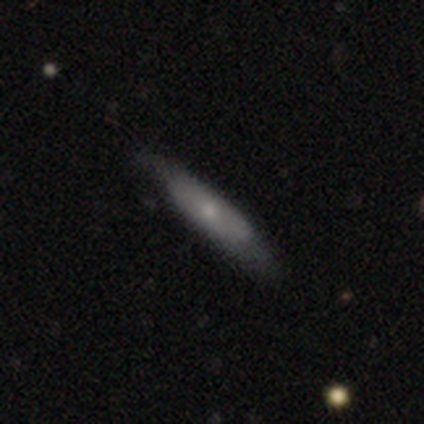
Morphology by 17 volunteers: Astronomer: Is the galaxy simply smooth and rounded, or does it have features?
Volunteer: smooth — 76%.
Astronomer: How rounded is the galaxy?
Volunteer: cigar-shaped — 77%.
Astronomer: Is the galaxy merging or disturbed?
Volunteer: none — 82%.